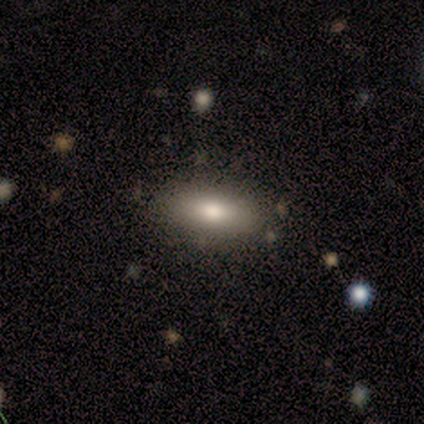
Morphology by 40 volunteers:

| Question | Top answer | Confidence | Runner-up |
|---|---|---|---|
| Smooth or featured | smooth | 65% | featured or disk (22%) |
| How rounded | in between | 81% | cigar-shaped (15%) |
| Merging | none | 80% | minor disturbance (9%) |